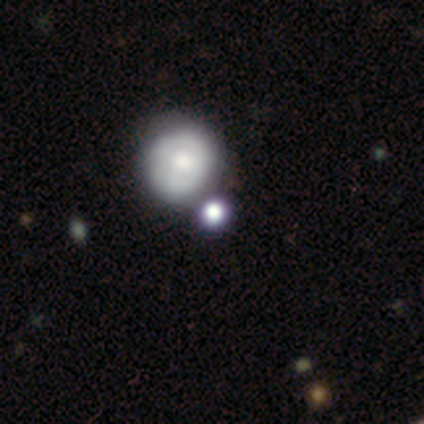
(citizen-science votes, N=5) Volunteers were most divided on "smooth or featured": smooth: 60%, featured or disk: 40%, star or artifact: 0%. More confident: merging — none (80%); how rounded — round (67%).